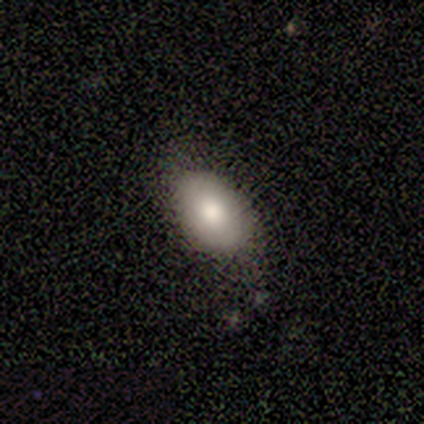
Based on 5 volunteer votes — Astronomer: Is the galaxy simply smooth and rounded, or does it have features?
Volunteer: smooth — 60% (runner-up: star or artifact, 40%).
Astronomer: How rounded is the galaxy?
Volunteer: in between — 100%.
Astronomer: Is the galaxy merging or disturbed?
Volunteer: none — 67%.